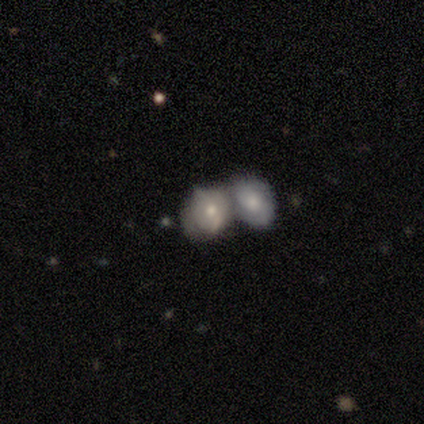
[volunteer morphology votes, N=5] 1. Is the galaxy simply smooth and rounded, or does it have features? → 60% smooth, 20% featured or disk, 20% star or artifact.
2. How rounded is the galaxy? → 67% in between, 33% round, 0% cigar-shaped.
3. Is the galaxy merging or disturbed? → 100% merger, 0% none, 0% minor disturbance, 0% major disturbance.